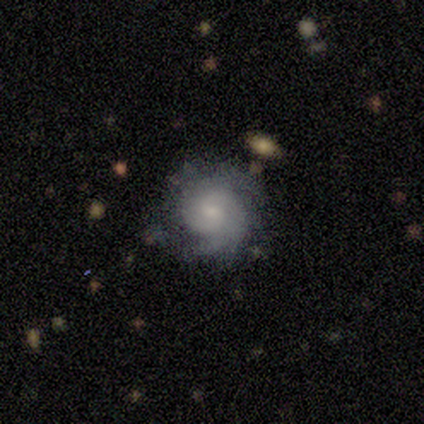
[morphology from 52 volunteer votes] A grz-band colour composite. It shows a featured or disk galaxy (87%) with no bar (71%), tight (57%) spiral arms (93%) and a small central bulge (58%). Merging: none (75%).